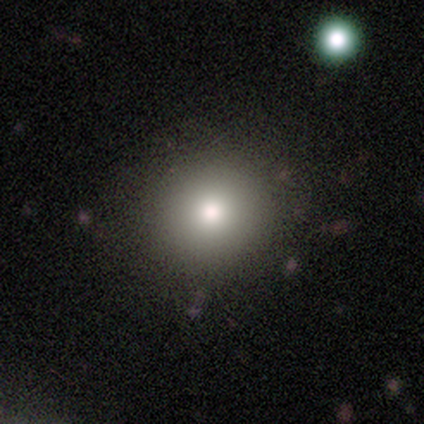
smooth_or_featured: smooth (p=0.74) [alt: star or artifact p=0.15]
how_rounded: round (p=0.97) [alt: in between p=0.03]
merging: none (p=0.97) [alt: minor disturbance p=0.03]